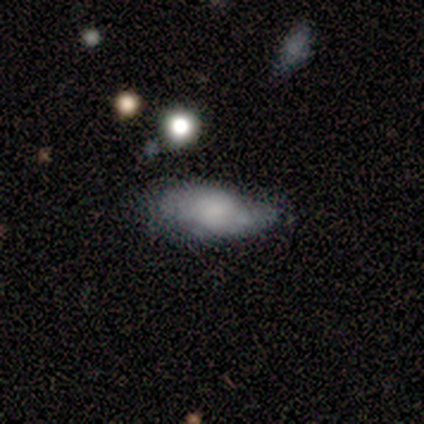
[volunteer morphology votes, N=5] Overall: smooth (100%). How rounded: in between (80%). Merging: minor disturbance (60%; major disturbance 20%).